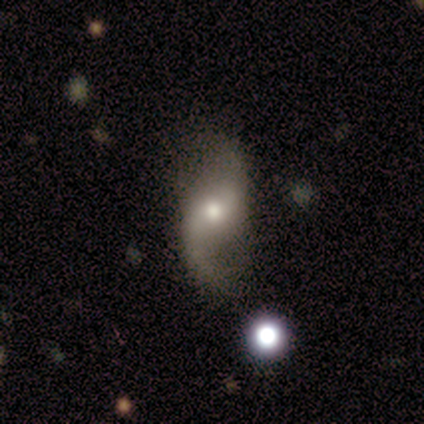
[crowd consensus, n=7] A featured or disk galaxy (86%) with a weak bar (50%, tied with no), 2 (80%) loose (100%) spiral arms (83%) and a moderate central bulge (83%). Merging: none (57%).